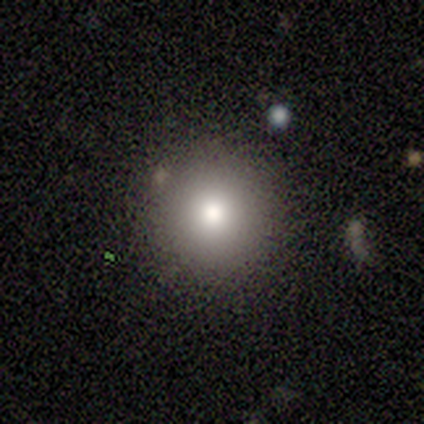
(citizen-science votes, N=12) Smooth or featured?
  - smooth: 83% *
  - featured or disk: 8%
  - star or artifact: 8%
How rounded?
  - round: 100% *
  - in between: 0%
  - cigar-shaped: 0%
Merging?
  - none: 100% *
  - minor disturbance: 0%
  - major disturbance: 0%
  - merger: 0%